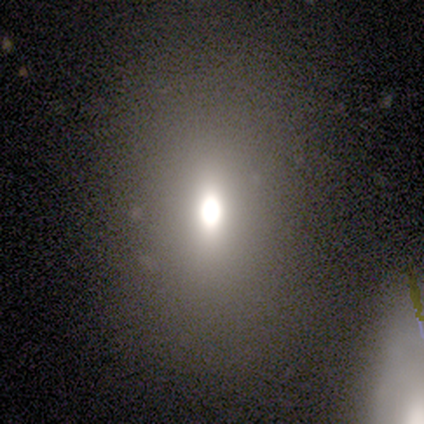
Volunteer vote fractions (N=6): smooth 67%, star or artifact 33%, featured or disk 0%. Down the decision tree: how rounded — in between (100%); merging — none (100%).